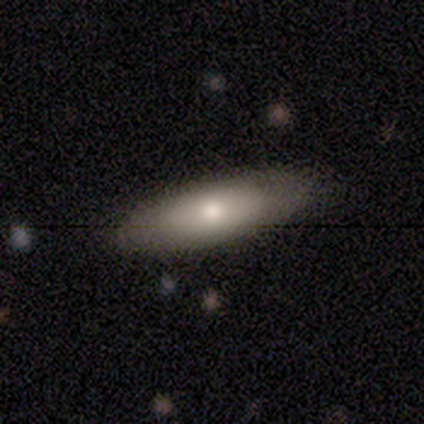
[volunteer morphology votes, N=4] This is possibly a smooth galaxy (50%, tied with featured or disk). How rounded: clearly in between (100%). Merging: clearly none (100%).